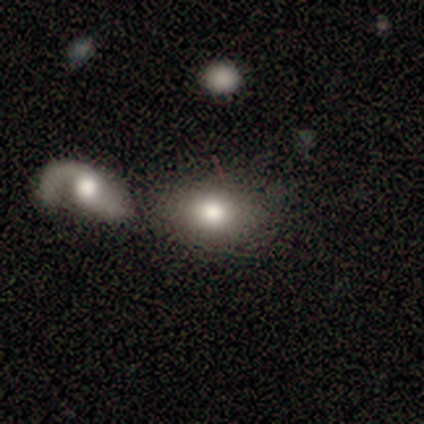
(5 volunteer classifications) A smooth galaxy with no disk features (60%) that is in between round and cigar-shaped (67%). Merging: none (50%, tied with merger).